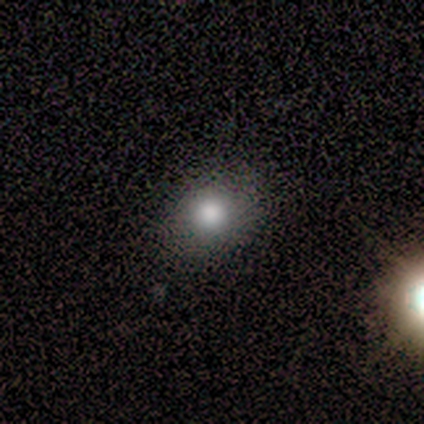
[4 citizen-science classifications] Smooth or featured: smooth — 75% (featured or disk — 25%)
How rounded: round — 100%
Merging: none — 100%